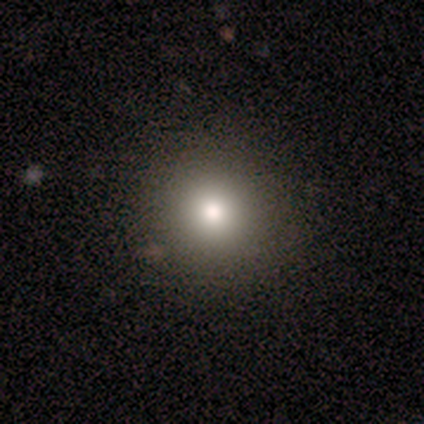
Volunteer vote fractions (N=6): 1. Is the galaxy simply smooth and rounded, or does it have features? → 83% smooth, 17% star or artifact, 0% featured or disk.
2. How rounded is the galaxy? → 100% round, 0% in between, 0% cigar-shaped.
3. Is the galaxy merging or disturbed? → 80% none, 20% minor disturbance, 0% major disturbance, 0% merger.